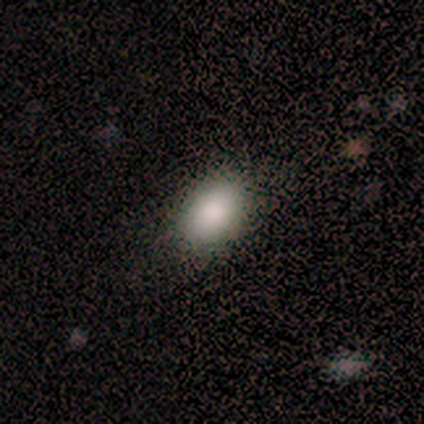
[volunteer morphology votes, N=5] smooth_or_featured: smooth (p=1.00)
how_rounded: in between (p=1.00)
merging: none (p=0.80) [alt: minor disturbance p=0.20]